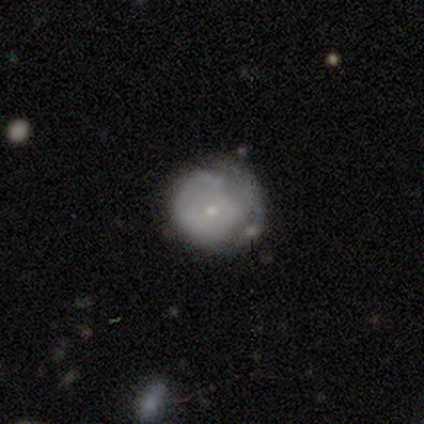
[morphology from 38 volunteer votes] smooth_or_featured: featured or disk (p=0.53) [alt: smooth p=0.39]
disk_edge_on: no (p=1.00)
bar: no (p=0.90) [alt: weak p=0.10]
has_spiral_arms: no (p=0.70) [alt: yes p=0.30]
bulge_size: small (p=0.80) [alt: moderate p=0.15]
merging: minor disturbance (p=0.46) [alt: none p=0.37]